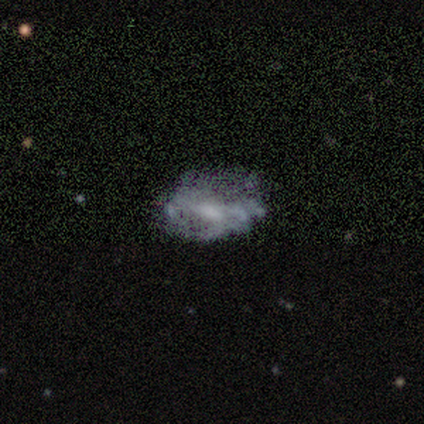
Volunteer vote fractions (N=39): Q: Smooth or featured?
A: featured or disk (67%); runner-up: smooth (23%)
Q: Edge-on disk?
A: no (100%)
Q: Bar?
A: no (65%); runner-up: weak (31%)
Q: Spiral arms?
A: no (65%); runner-up: yes (35%)
Q: Bulge size?
A: moderate (50%); runner-up: none (27%)
Q: Merging?
A: none (31%); runner-up: minor disturbance (20%)